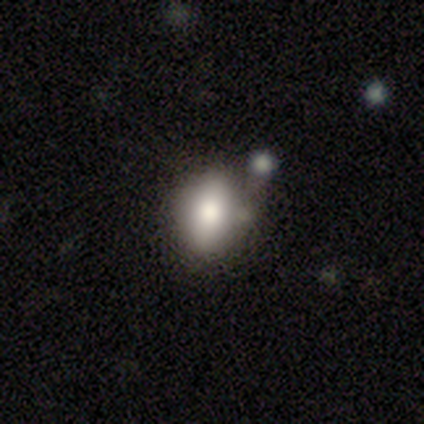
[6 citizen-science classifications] smooth-or-featured: smooth: 67% | featured or disk: 17% | star or artifact: 17%
  how-rounded: in between: 75% | round: 25% | cigar-shaped: 0%
  merging: none: 80% | merger: 20% | minor disturbance: 0% | major disturbance: 0%